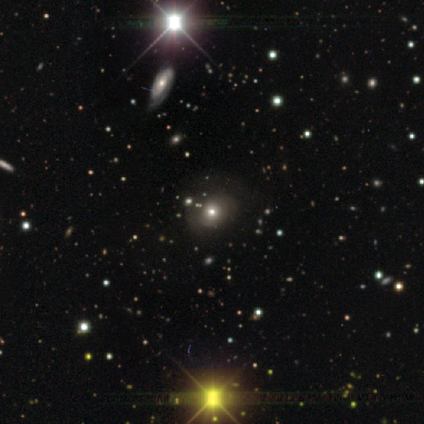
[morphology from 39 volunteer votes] This is marginally a smooth galaxy (38%). How rounded: likely round (60%). Merging: likely none (76%).